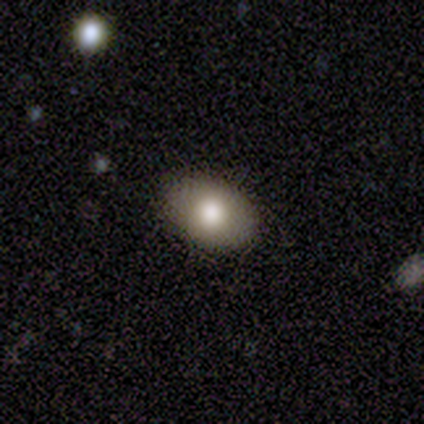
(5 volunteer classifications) This appears to be a smooth galaxy with no disk features (100%) that is in between round and cigar-shaped (100%). Merging: none (80%).